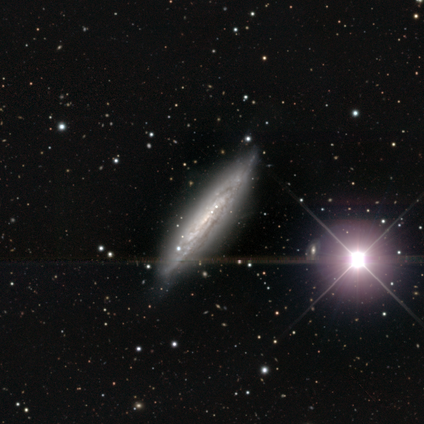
Q: Smooth or featured?
A: featured or disk (80%); runner-up: star or artifact (20%)
Q: Edge-on disk?
A: no (75%); runner-up: yes (25%)
Q: Bar?
A: no (67%); runner-up: strong (33%)
Q: Spiral arms?
A: yes (100%)
Q: Spiral winding?
A: tight (100%)
Q: Spiral arm count?
A: can't tell (100%)
Q: Bulge size?
A: none (67%); runner-up: small (33%)
Q: Merging?
A: none (75%); runner-up: major disturbance (25%)